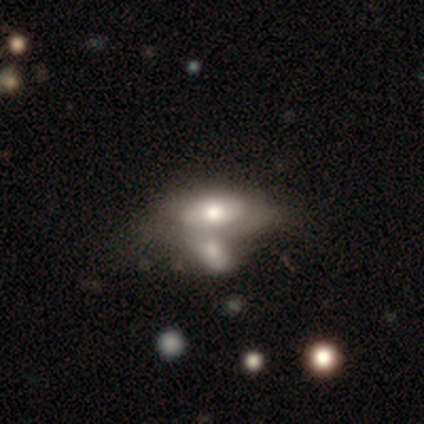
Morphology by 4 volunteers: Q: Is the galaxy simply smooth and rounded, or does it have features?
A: smooth — 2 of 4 (50%, tied with featured or disk).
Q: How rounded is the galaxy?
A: round — 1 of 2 (50%, tied with in between).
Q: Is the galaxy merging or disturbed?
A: merger — 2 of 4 (50%).